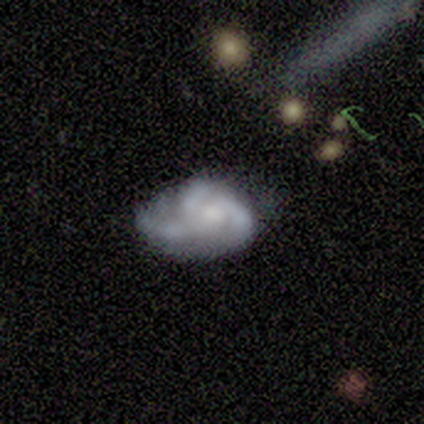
featured or disk 80%, smooth 20%, star or artifact 0%. Down the decision tree: edge-on disk — no (100%); bar — no (75%); spiral arms — yes (50%, tied with no); spiral arm count — 3 (100%); spiral winding — tight (50%, tied with loose); bulge size — none (75%); merging — none (80%).